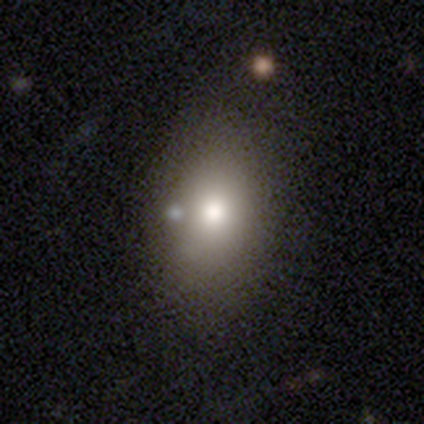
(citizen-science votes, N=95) This appears to be a smooth galaxy with no disk features (76%) that is in between round and cigar-shaped (74%). Merging: none (63%).